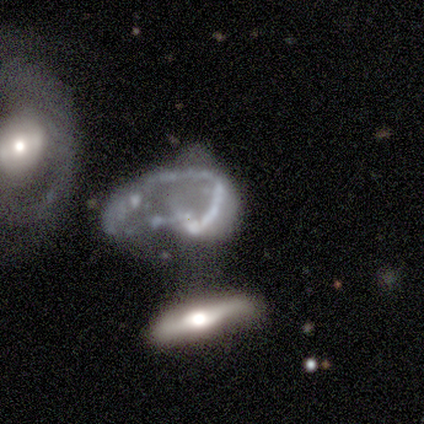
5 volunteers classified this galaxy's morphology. This is likely a featured or disk galaxy (60%). It is clearly not viewed edge-on (100%). Bar: clearly no (100%). Spiral arm pattern: likely no (67%). Central bulge: clearly none (100%). Merging: likely major disturbance (75%).